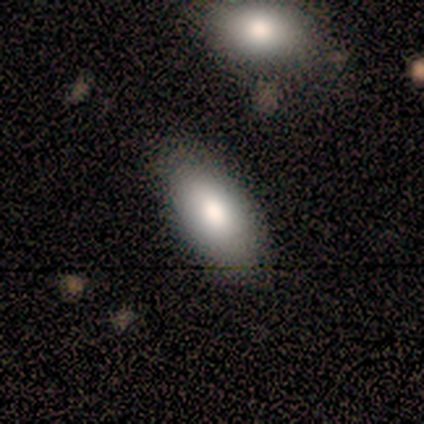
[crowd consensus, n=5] Smooth or featured? smooth (80%)
How rounded? in between (100%)
Merging? none (80%)